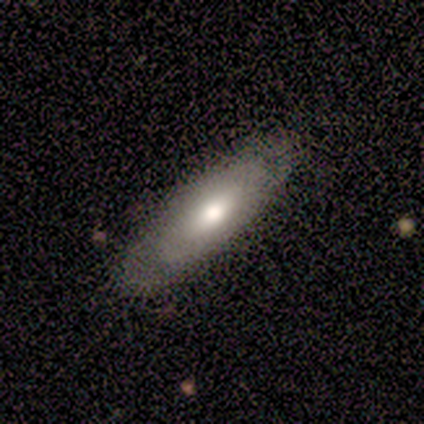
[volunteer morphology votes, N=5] smooth-or-featured: smooth: 60% | featured or disk: 40% | star or artifact: 0%
  how-rounded: in between: 100% | round: 0% | cigar-shaped: 0%
  merging: none: 80% | minor disturbance: 20% | major disturbance: 0% | merger: 0%